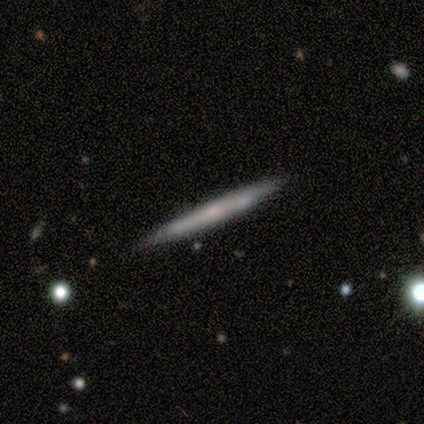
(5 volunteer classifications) Smooth or featured? smooth (80%)
How rounded? cigar-shaped (100%)
Merging? none (100%)